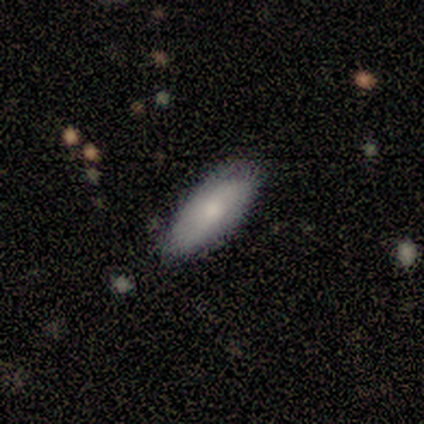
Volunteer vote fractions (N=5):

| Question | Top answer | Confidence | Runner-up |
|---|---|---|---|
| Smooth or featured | smooth | 100% | — |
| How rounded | in between | 100% | — |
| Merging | none | 100% | — |